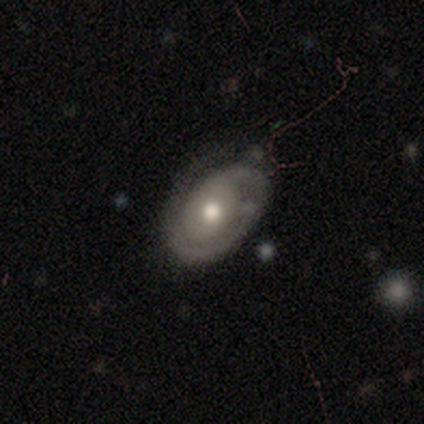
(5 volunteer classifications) A featured or disk galaxy (80%) with no bar (67%), 1 (50%, tied with 2) tight (50%, tied with medium) spiral arms (67%) and a moderate central bulge (100%).

Vote fractions:
- Smooth or featured? featured or disk: 80% / smooth: 20% / star or artifact: 0%
- Edge-on disk? no: 75% / yes: 25%
- Bar? no: 67% / weak: 33% / strong: 0%
- Spiral arms? yes: 67% / no: 33%
- Spiral winding? tight: 50% (tied) / medium: 50% (tied) / loose: 0%
- Spiral arm count? 1: 50% (tied) / 2: 50% (tied) / 3: 0% / 4: 0% / more than 4: 0% / can't tell: 0%
- Bulge size? moderate: 100% / dominant: 0% / large: 0% / small: 0% / none: 0%
- Merging? minor disturbance: 60% / none: 40% / major disturbance: 0% / merger: 0%